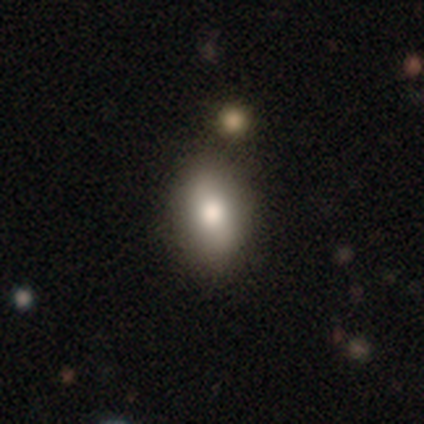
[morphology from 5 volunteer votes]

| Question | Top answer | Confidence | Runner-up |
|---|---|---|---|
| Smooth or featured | smooth | 60% | featured or disk (20%) |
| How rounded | in between | 100% | — |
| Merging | none | 100% | — |